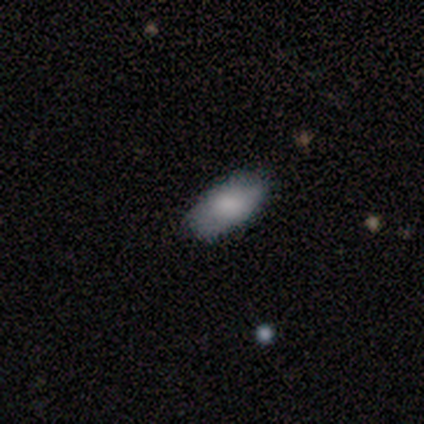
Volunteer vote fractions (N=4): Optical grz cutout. It shows a smooth galaxy with no disk features (100%) that is in between round and cigar-shaped (100%). Merging: none (75%).